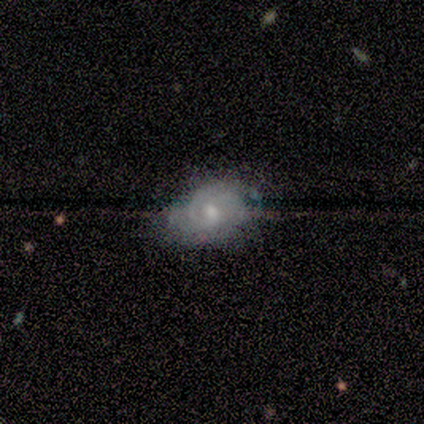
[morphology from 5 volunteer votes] Overall: featured or disk (60%; smooth 40%). Edge-on disk: no (67%; yes 33%). Bar: weak (50%, tied with no). Spiral arms: yes (50%, tied with no). Spiral arm count: 2 (100%). Spiral winding: loose (100%). Bulge size: moderate (100%). Merging: none (40%, tied with minor disturbance).